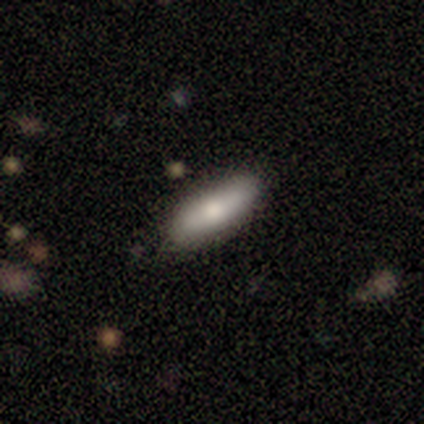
Overall: smooth (75%). How rounded: in between (70%; cigar-shaped 30%). Merging: none (45%).